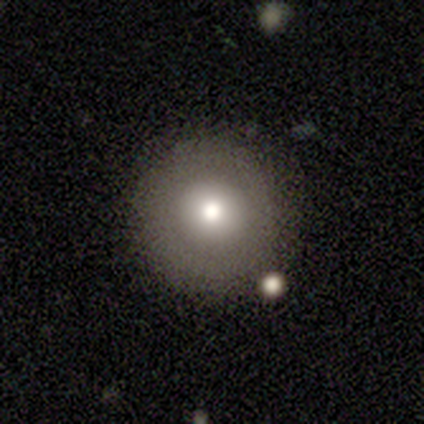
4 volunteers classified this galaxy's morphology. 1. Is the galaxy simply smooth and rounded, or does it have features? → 75% smooth, 25% star or artifact, 0% featured or disk.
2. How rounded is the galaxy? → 100% round, 0% in between, 0% cigar-shaped.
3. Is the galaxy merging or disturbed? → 100% none, 0% minor disturbance, 0% major disturbance, 0% merger.